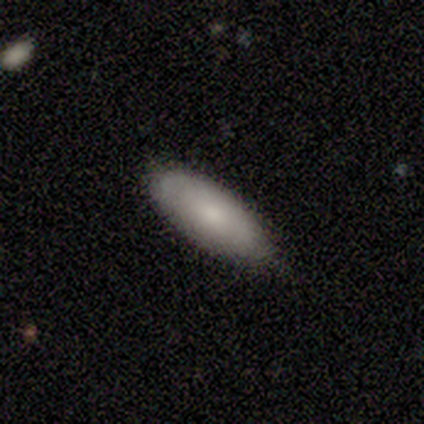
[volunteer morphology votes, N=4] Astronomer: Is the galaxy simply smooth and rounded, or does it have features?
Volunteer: smooth — 50%.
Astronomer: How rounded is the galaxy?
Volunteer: in between — 50%, tied with cigar-shaped at 50%.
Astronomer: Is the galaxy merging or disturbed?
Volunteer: none — 67%.